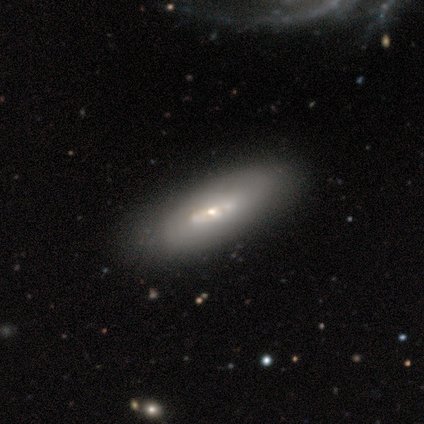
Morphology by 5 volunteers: A featured or disk galaxy (60%) viewed edge-on (67%) with a rounded central bulge (100%).

Vote fractions:
- Smooth or featured? featured or disk: 60% / smooth: 40% / star or artifact: 0%
- Edge-on disk? yes: 67% / no: 33%
- Edge-on bulge? rounded: 100% / boxy: 0% / none: 0%
- Merging? none: 80% / minor disturbance: 20% / major disturbance: 0% / merger: 0%